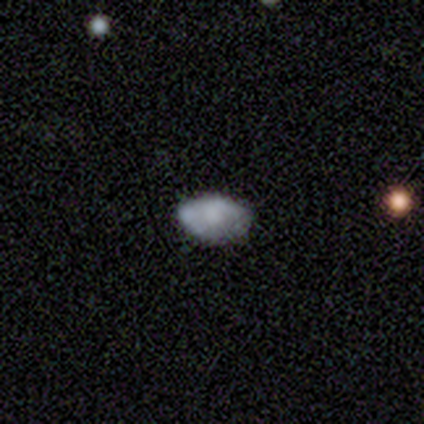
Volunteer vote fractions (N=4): Smooth or featured? smooth (75%)
How rounded? in between (67%)
Merging? none (100%)